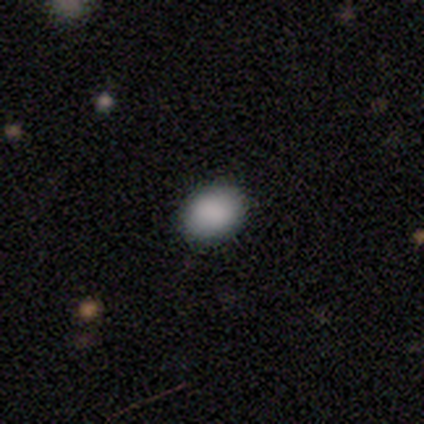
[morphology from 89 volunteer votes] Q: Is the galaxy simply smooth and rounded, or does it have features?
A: smooth — 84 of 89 (94%).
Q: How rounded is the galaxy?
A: in between — 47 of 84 (56%).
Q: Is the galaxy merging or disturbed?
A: none — 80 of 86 (93%).